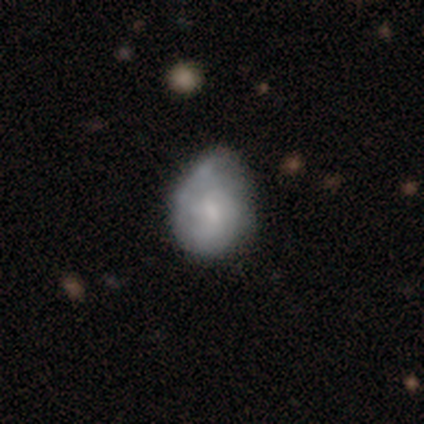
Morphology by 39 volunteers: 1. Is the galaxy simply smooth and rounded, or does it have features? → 49% smooth, 46% featured or disk, 5% star or artifact.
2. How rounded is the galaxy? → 47% round (tied), 47% in between (tied), 5% cigar-shaped.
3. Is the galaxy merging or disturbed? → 57% minor disturbance, 27% none, 16% major disturbance, 0% merger.